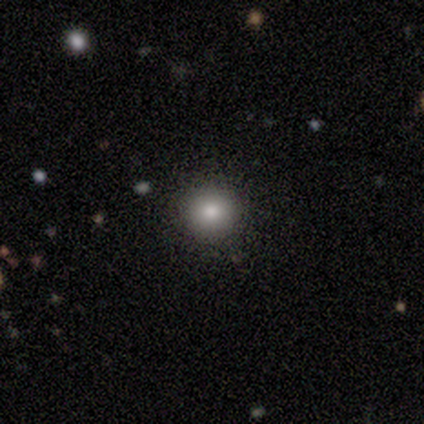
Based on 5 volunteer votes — Q: Smooth or featured?
A: smooth (100%)
Q: How rounded?
A: round (100%)
Q: Merging?
A: none (100%)